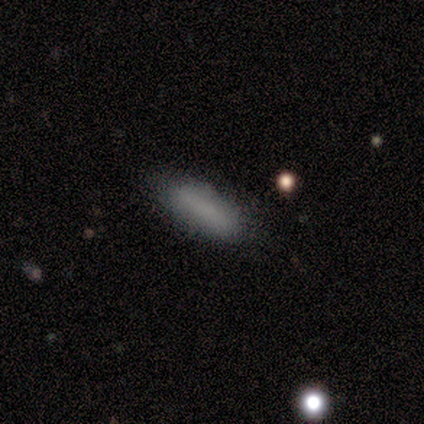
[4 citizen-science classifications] Smooth or featured: smooth — 100%
How rounded: in between — 75% (cigar-shaped — 25%)
Merging: none — 75% (major disturbance — 25%)